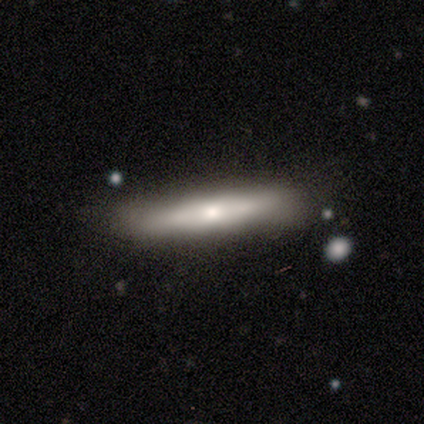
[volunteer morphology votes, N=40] type=smooth (60%); roundness=cigar-shaped (96%); merging=none (81%).